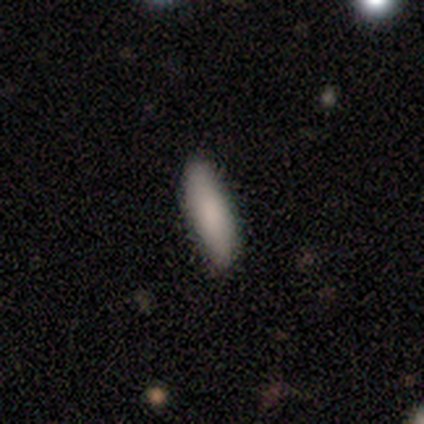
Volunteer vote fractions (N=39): Smooth or featured?
  - smooth: 87% *
  - featured or disk: 10%
  - star or artifact: 3%
How rounded?
  - cigar-shaped: 56% *
  - in between: 41%
  - round: 3%
Merging?
  - none: 87% *
  - minor disturbance: 8%
  - major disturbance: 5%
  - merger: 0%